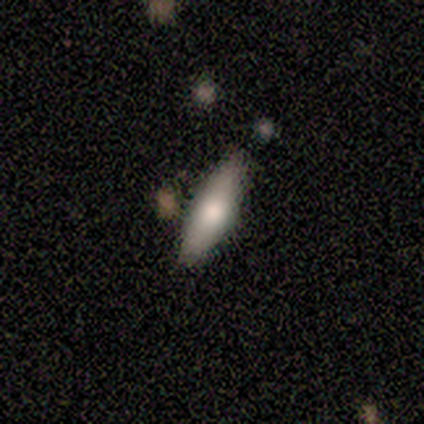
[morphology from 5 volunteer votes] Smooth or featured? smooth (80%)
How rounded? cigar-shaped (75%)
Merging? none (100%)